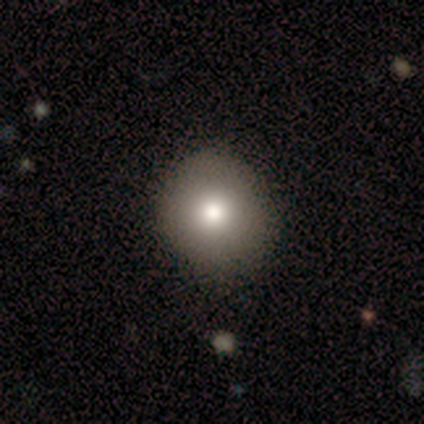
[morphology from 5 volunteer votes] This appears to be a smooth galaxy with no disk features (100%) that is round (100%). Merging: none (60%).